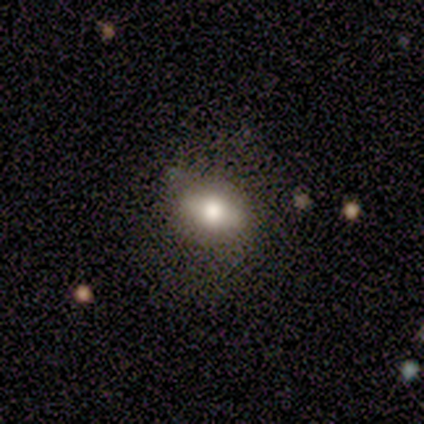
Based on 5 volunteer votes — Morphology: type=smooth (60%); roundness=in between (67%); merging=none (100%).